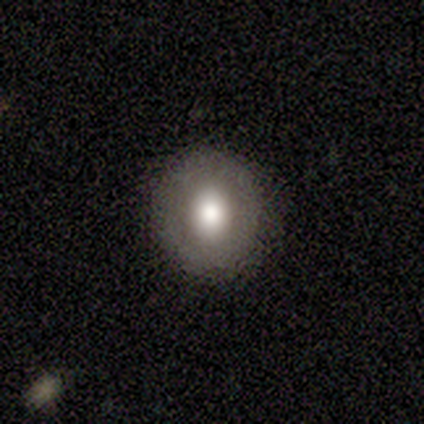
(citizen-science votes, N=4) Smooth or featured? smooth (50%, tied with featured or disk)
How rounded? round (100%)
Merging? none (100%)